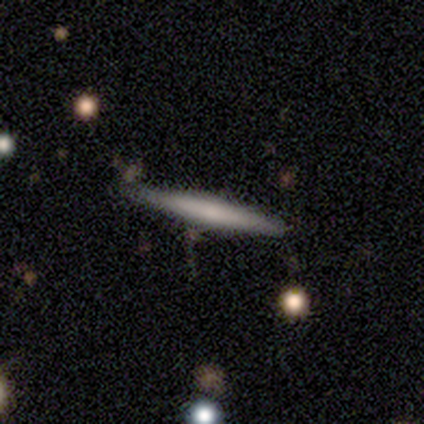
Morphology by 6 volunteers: A smooth galaxy with no disk features (67%) that is cigar-shaped (100%).

Vote fractions:
- Smooth or featured? smooth: 67% / featured or disk: 33% / star or artifact: 0%
- How rounded? cigar-shaped: 100% / round: 0% / in between: 0%
- Merging? none: 83% / major disturbance: 17% / minor disturbance: 0% / merger: 0%